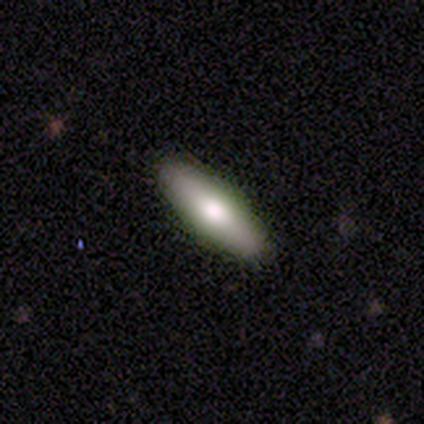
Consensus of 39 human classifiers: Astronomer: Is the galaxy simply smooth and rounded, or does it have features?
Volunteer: smooth — 74%.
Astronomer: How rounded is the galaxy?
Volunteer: cigar-shaped — 59% (runner-up: in between, 41%).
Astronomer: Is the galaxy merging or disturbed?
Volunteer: none — 92%.